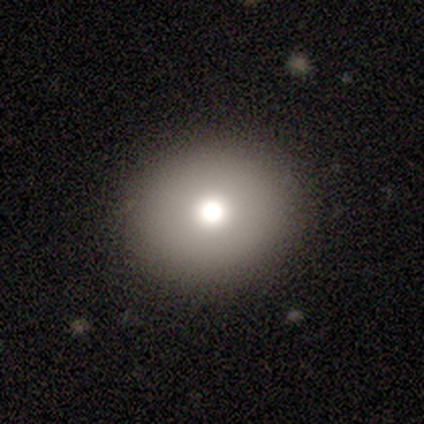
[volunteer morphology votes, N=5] Smooth or featured: smooth — 100%
How rounded: round — 100%
Merging: none — 80% (minor disturbance — 20%)